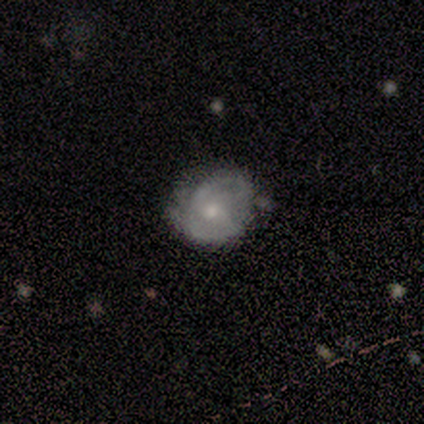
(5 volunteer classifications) Q: Smooth or featured?
A: featured or disk (60%); runner-up: smooth (40%)
Q: Edge-on disk?
A: no (100%)
Q: Bar?
A: no (100%)
Q: Spiral arms?
A: yes (100%)
Q: Spiral winding?
A: tight (67%); runner-up: medium (33%)
Q: Spiral arm count?
A: can't tell (67%); runner-up: 2 (33%)
Q: Bulge size?
A: small (67%); runner-up: none (33%)
Q: Merging?
A: none (40%); tied with: minor disturbance (40%)